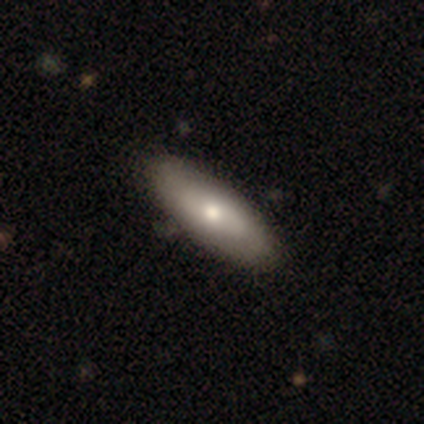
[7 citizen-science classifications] Smooth or featured? featured or disk (86%)
Edge-on disk? no (83%)
Bar? no (80%)
Spiral arms? no (80%)
Bulge size? moderate (60%)
Merging? none (100%)